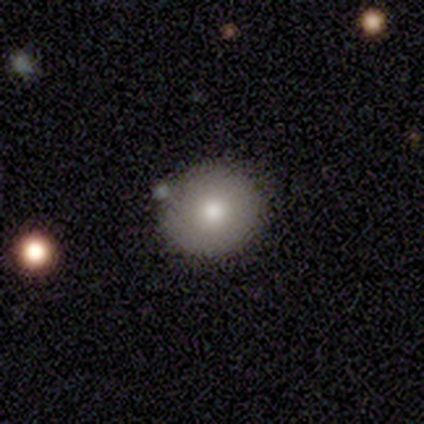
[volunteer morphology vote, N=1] Smooth or featured? smooth (100%)
How rounded? round (100%)
Merging? none (100%)